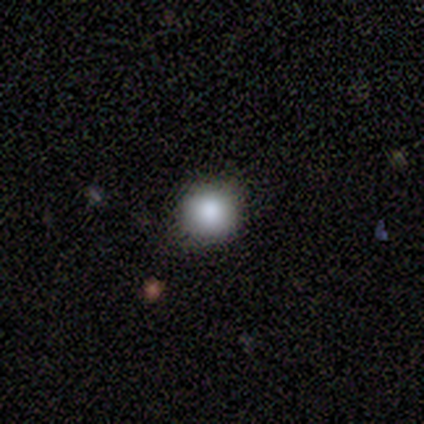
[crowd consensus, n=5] smooth-or-featured: smooth: 100% | featured or disk: 0% | star or artifact: 0%
  how-rounded: round: 100% | in between: 0% | cigar-shaped: 0%
  merging: none: 100% | minor disturbance: 0% | major disturbance: 0% | merger: 0%